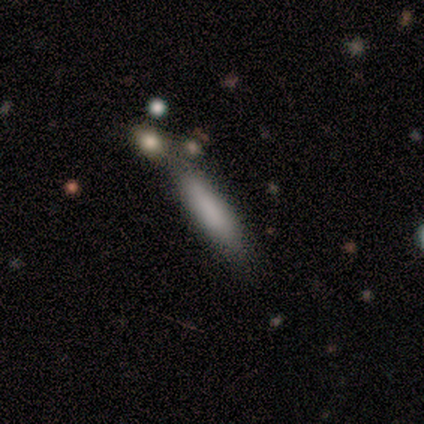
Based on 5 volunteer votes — Morphology: type=smooth (100%); roundness=cigar-shaped (100%); merging=none (80%).